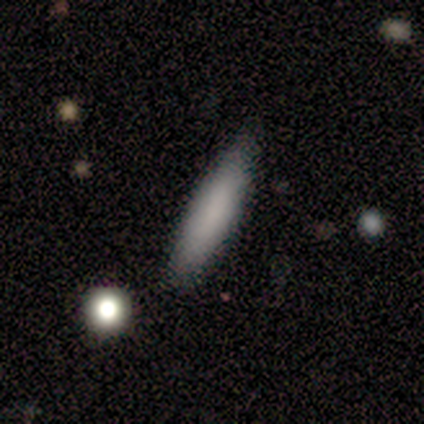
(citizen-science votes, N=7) This appears to be a smooth galaxy with no disk features (71%) that is cigar-shaped (100%). Merging: none (100%).